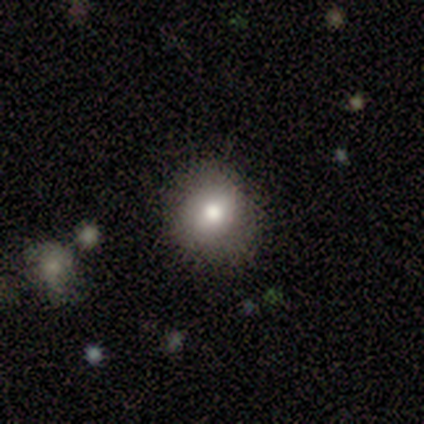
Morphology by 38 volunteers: Smooth or featured?
  - smooth: 74% *
  - featured or disk: 13%
  - star or artifact: 13%
How rounded?
  - round: 79% *
  - in between: 21%
  - cigar-shaped: 0%
Merging?
  - none: 88% *
  - minor disturbance: 12%
  - major disturbance: 0%
  - merger: 0%